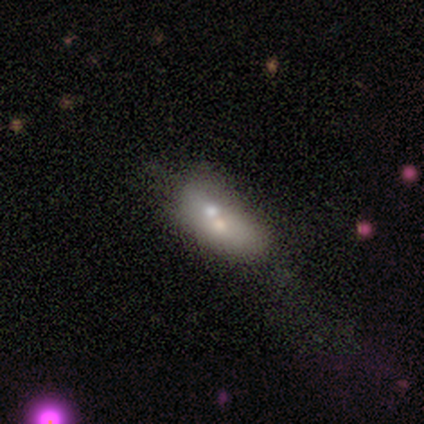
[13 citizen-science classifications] This is likely a featured or disk galaxy (62%). It is clearly not viewed edge-on (88%). Bar: clearly no (86%). Spiral arm pattern: clearly no (100%). Central bulge: likely small (71%). Merging: possibly merger (55%).